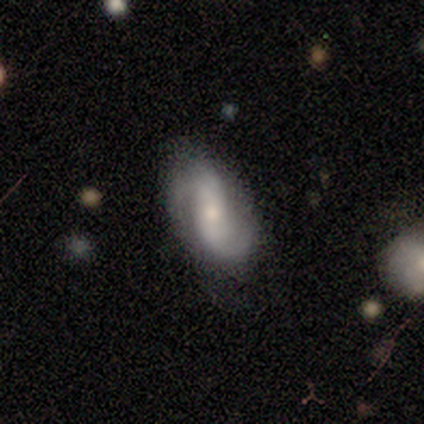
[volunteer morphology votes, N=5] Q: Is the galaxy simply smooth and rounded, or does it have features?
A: featured or disk — 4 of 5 (80%).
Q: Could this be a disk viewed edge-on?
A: no — 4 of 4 (100%).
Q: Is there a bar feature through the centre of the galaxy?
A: no — 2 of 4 (50%).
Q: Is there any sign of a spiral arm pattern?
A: yes — 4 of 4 (100%).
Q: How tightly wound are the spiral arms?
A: medium — 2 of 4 (50%, tied with loose).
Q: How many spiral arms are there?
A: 2 — 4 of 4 (100%).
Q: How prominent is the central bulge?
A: small — 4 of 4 (100%).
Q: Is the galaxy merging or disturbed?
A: none — 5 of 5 (100%).